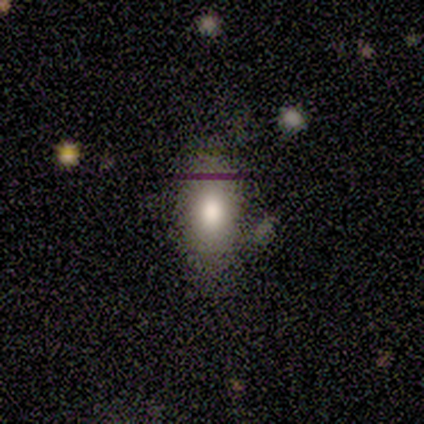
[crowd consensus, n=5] This appears to be a smooth galaxy with no disk features (80%) that is in between round and cigar-shaped (100%). Merging: none (100%).